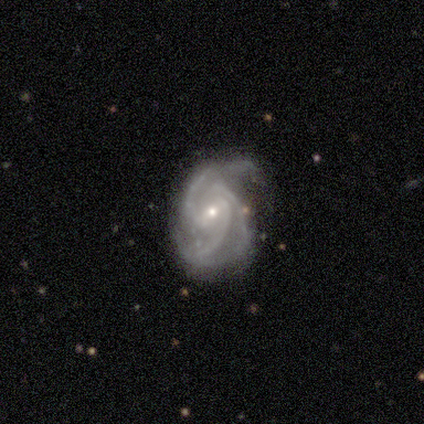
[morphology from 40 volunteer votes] A featured or disk galaxy (98%) with a weak bar (61%), 3 (79%) medium (53%) spiral arms (100%) and a small central bulge (79%). Merging: none (57%).